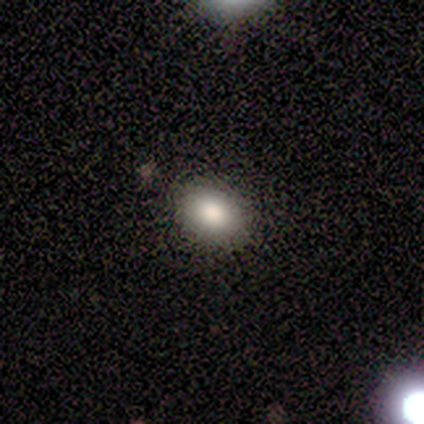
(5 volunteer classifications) Q: Smooth or featured?
A: smooth (60%); runner-up: featured or disk (20%)
Q: How rounded?
A: in between (67%); runner-up: round (33%)
Q: Merging?
A: none (75%); runner-up: minor disturbance (25%)